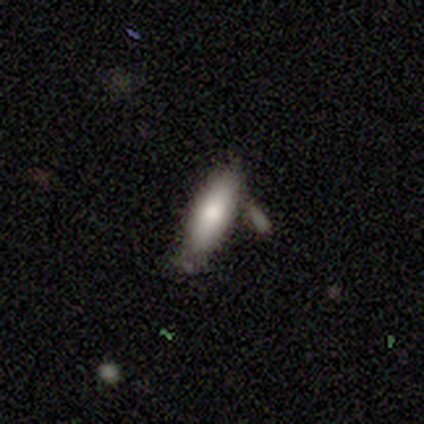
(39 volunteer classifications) Overall: smooth (69%). How rounded: cigar-shaped (63%; in between 37%). Merging: none (67%).